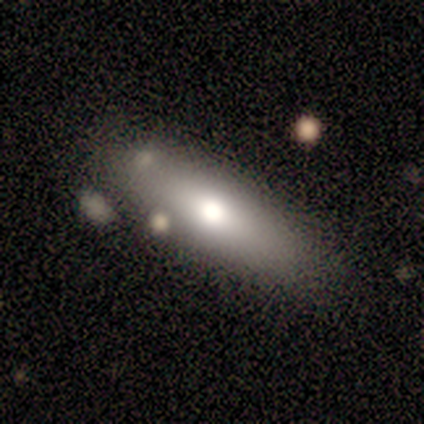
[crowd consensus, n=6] Overall: smooth (67%). How rounded: in between (75%). Merging: none (100%).